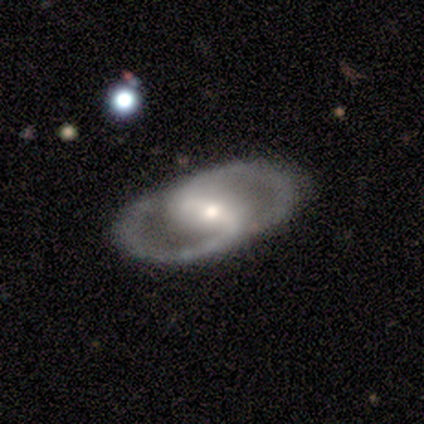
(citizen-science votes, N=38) Volunteers were most divided on "bulge size" (2-way tie): moderate: 47%, small: 47%, large: 7%, dominant: 0%, none: 0%. More confident: spiral arm count — 2 (96%); smooth or featured — featured or disk (89%); edge-on disk — no (88%); spiral arms — yes (77%); merging — none (76%); spiral winding — medium (61%); bar — weak (57%).